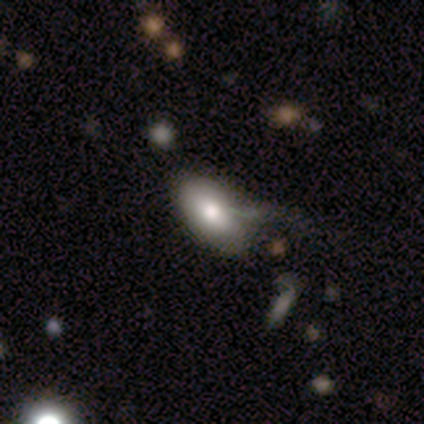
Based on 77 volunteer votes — Morphology: type=smooth (74%); roundness=in between (95%); merging=minor disturbance (25%).